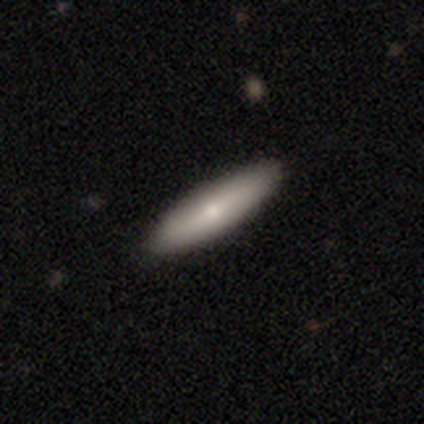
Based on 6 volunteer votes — This is clearly a smooth galaxy (83%). How rounded: likely cigar-shaped (60%). Merging: clearly none (100%).